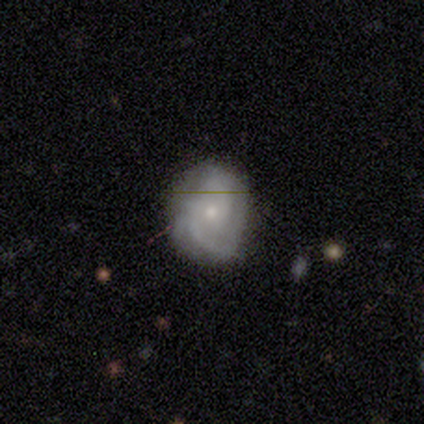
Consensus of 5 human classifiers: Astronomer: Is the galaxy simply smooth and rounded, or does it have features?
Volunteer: featured or disk — 100%.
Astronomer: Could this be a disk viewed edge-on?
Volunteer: no — 100%.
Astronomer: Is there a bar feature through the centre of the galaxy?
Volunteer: no — 100%.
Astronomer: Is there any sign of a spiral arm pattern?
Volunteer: yes — 100%.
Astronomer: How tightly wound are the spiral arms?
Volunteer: tight — 60% (runner-up: loose, 40%).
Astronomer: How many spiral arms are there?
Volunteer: can't tell — 40% (runner-up: 2, 20%).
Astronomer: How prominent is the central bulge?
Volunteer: moderate — 60% (runner-up: small, 40%).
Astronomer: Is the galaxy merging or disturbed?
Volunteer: minor disturbance — 60% (runner-up: none, 40%).